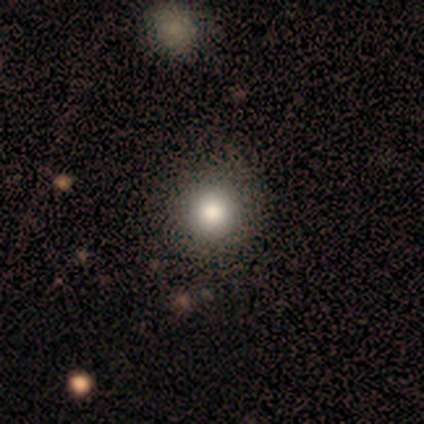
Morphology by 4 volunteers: smooth-or-featured: smooth: 100% | featured or disk: 0% | star or artifact: 0%
  how-rounded: round: 100% | in between: 0% | cigar-shaped: 0%
  merging: none: 100% | minor disturbance: 0% | major disturbance: 0% | merger: 0%